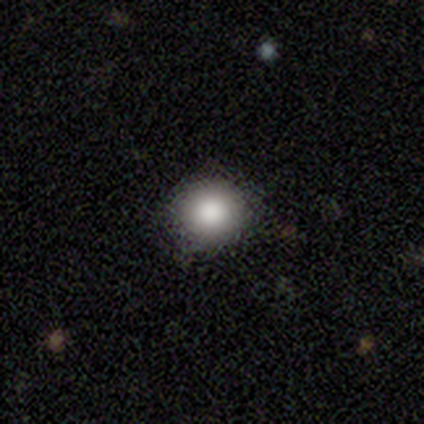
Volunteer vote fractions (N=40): Smooth or featured?
  - smooth: 88% *
  - star or artifact: 8%
  - featured or disk: 5%
How rounded?
  - round: 91% *
  - in between: 6%
  - cigar-shaped: 3%
Merging?
  - none: 95% *
  - minor disturbance: 5%
  - major disturbance: 0%
  - merger: 0%